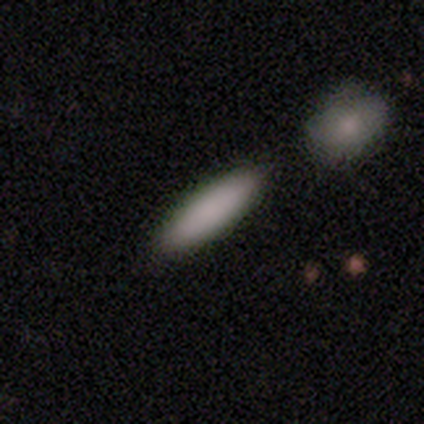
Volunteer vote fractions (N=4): smooth_or_featured: smooth (p=1.00)
how_rounded: in between (p=0.50) [tied with: cigar-shaped p=0.50]
merging: none (p=0.50) [tied with: minor disturbance p=0.50]